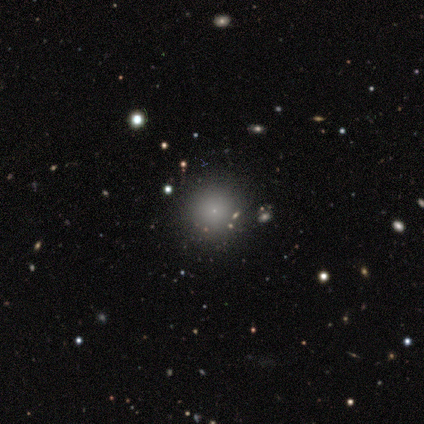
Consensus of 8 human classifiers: Morphology: type=featured or disk (50%); edge-on=no (100%); bar=no (100%); spiral arms=no (100%); bulge=small (100%); merging=none (86%).